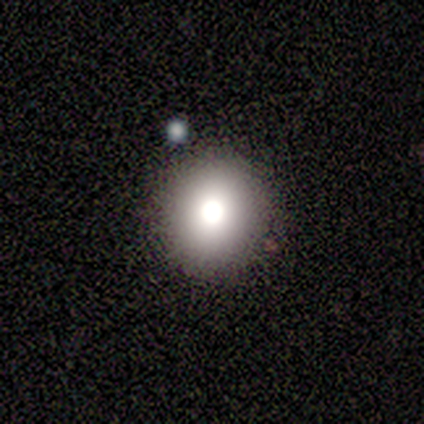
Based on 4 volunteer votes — Morphology: type=smooth (100%); roundness=round (75%); merging=none (50%, tied with minor disturbance).